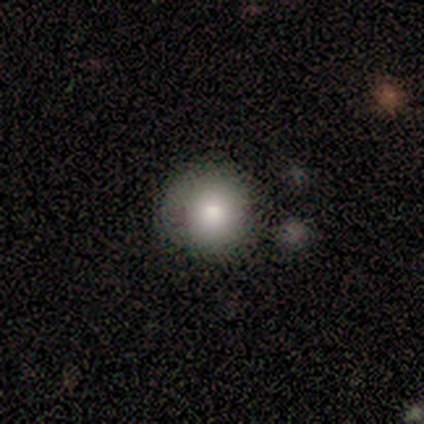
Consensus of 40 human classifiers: smooth 78%, star or artifact 12%, featured or disk 10%. Down the decision tree: how rounded — round (94%); merging — none (71%).